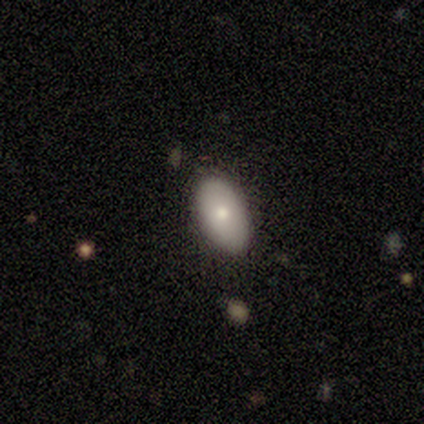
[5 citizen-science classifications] smooth_or_featured: smooth (p=0.60) [alt: featured or disk p=0.40]
how_rounded: in between (p=1.00)
merging: none (p=1.00)